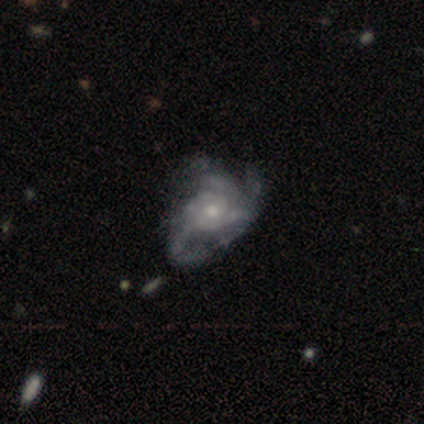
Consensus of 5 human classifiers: Overall: featured or disk (60%; smooth 40%). Edge-on disk: no (100%). Bar: no (67%; weak 33%). Spiral arms: yes (100%). Spiral arm count: 3 (100%). Spiral winding: medium (67%; loose 33%). Bulge size: moderate (67%; large 33%). Merging: minor disturbance (60%; major disturbance 40%).